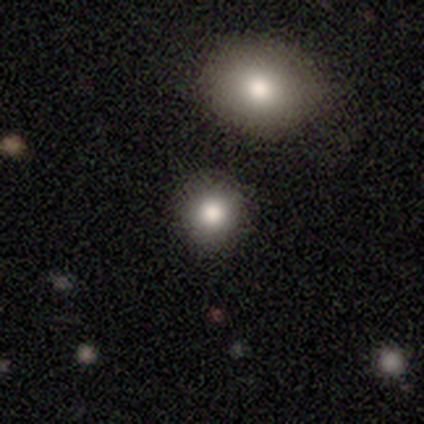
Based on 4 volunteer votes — Smooth or featured? smooth (75%)
How rounded? round (100%)
Merging? none (100%)